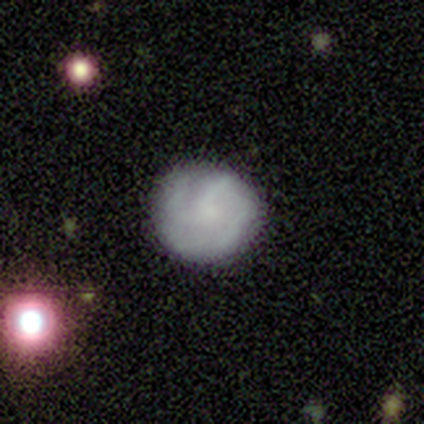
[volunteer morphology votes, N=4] Smooth or featured?
  - smooth: 75% *
  - featured or disk: 25%
  - star or artifact: 0%
How rounded?
  - round: 100% *
  - in between: 0%
  - cigar-shaped: 0%
Merging?
  - none: 100% *
  - minor disturbance: 0%
  - major disturbance: 0%
  - merger: 0%